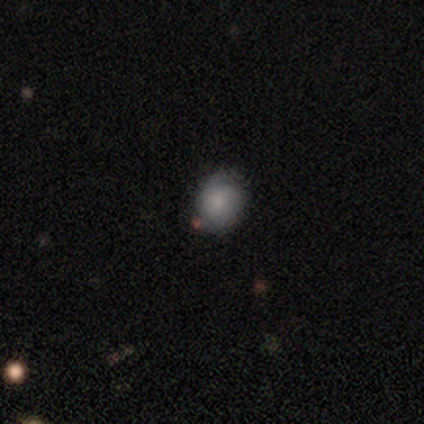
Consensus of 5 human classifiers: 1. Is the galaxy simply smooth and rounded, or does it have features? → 60% smooth, 40% featured or disk, 0% star or artifact.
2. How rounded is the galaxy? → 67% round, 33% in between, 0% cigar-shaped.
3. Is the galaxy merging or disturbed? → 40% none, 20% minor disturbance, 20% major disturbance, 20% merger.